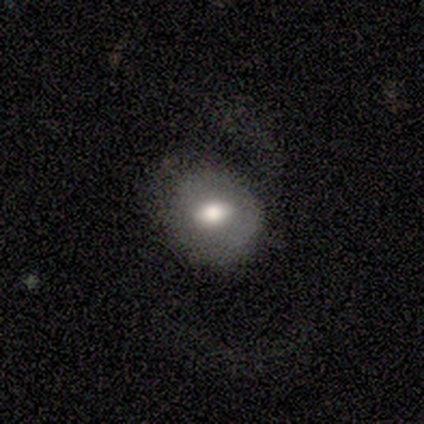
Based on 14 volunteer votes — A smooth galaxy with no disk features (57%) that is round (62%).

Vote fractions:
- Smooth or featured? smooth: 57% / featured or disk: 43% / star or artifact: 0%
- How rounded? round: 62% / in between: 38% / cigar-shaped: 0%
- Merging? none: 71% / major disturbance: 21% / minor disturbance: 7% / merger: 0%